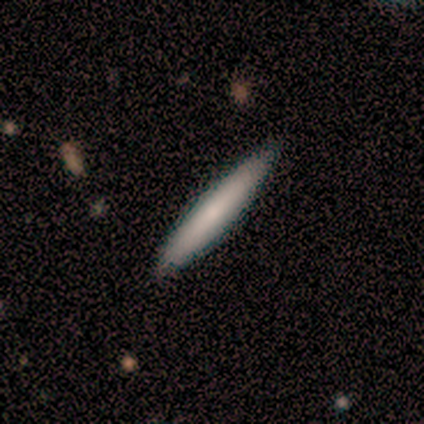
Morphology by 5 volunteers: Q: Smooth or featured?
A: smooth (80%); runner-up: featured or disk (20%)
Q: How rounded?
A: cigar-shaped (100%)
Q: Merging?
A: none (80%); runner-up: merger (20%)